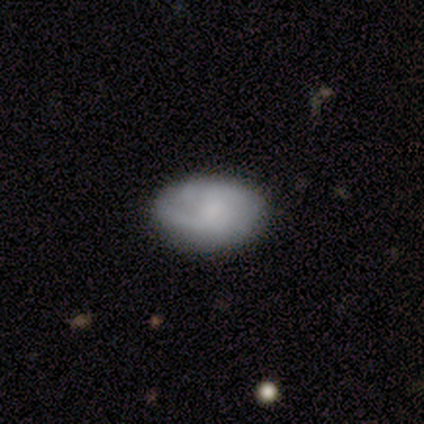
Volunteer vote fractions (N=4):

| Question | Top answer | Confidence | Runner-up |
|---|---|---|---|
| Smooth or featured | smooth | 50% | tied: featured or disk (50%) |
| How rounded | in between | 100% | — |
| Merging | none | 100% | — |